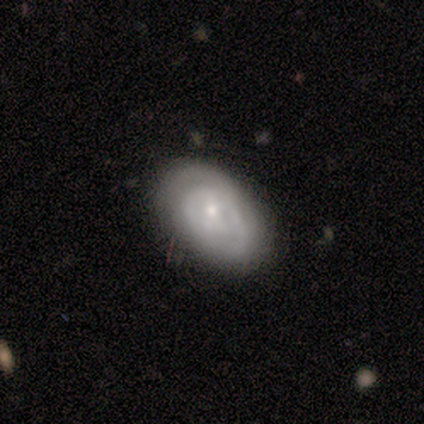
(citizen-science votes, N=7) A featured or disk galaxy (86%) with no bar (67%), tight (40%, tied with medium) spiral arms (83%) and a small central bulge (67%).

Vote fractions:
- Smooth or featured? featured or disk: 86% / smooth: 14% / star or artifact: 0%
- Edge-on disk? no: 100% / yes: 0%
- Bar? no: 67% / weak: 33% / strong: 0%
- Spiral arms? yes: 83% / no: 17%
- Spiral winding? tight: 40% (tied) / medium: 40% (tied) / loose: 20%
- Spiral arm count? can't tell: 60% / 2: 40% / 1: 0% / 3: 0% / 4: 0% / more than 4: 0%
- Bulge size? small: 67% / none: 33% / dominant: 0% / large: 0% / moderate: 0%
- Merging? none: 100% / minor disturbance: 0% / major disturbance: 0% / merger: 0%